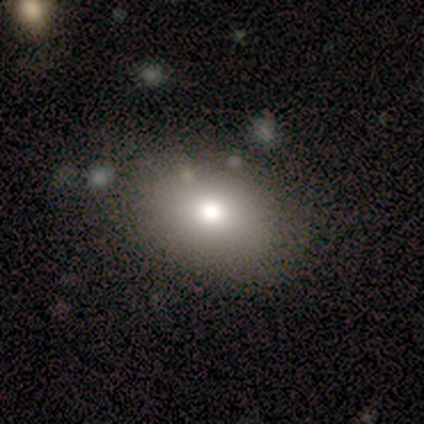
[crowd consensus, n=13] Overall: smooth (77%). How rounded: in between (80%). Merging: none (100%).